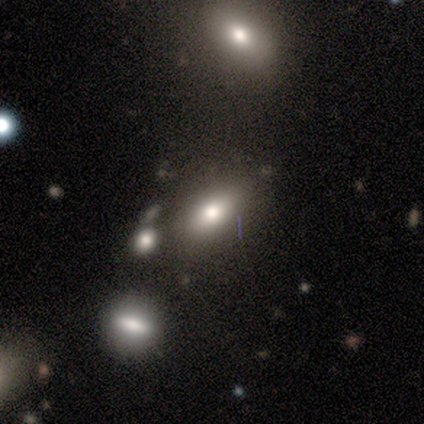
smooth-or-featured: smooth: 64% | featured or disk: 27% | star or artifact: 9%
  how-rounded: in between: 71% | cigar-shaped: 29% | round: 0%
  merging: none: 50% | minor disturbance: 30% | major disturbance: 10% | merger: 10%